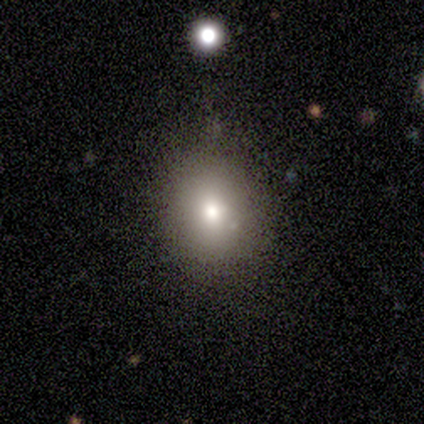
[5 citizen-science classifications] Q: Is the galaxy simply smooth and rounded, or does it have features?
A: smooth — 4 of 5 (80%).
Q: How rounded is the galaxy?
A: round — 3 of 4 (75%).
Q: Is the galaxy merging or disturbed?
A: none — 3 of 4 (75%).